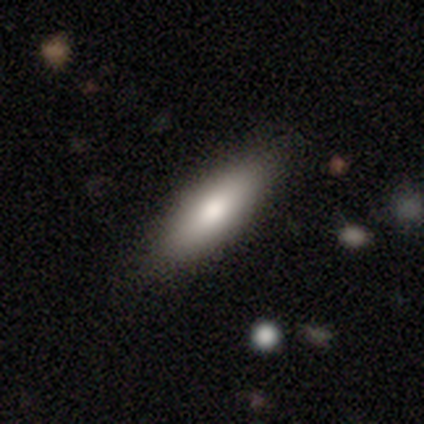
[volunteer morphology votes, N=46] A smooth galaxy with no disk features (83%) that is cigar-shaped (53%). Merging: none (86%).